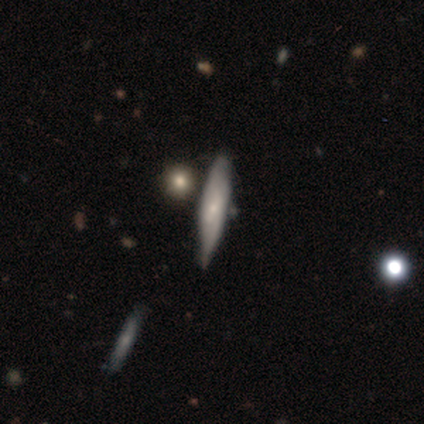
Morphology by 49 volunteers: This appears to be a featured or disk galaxy (55%) viewed edge-on (63%) with a rounded central bulge (47%). Merging: none (60%).